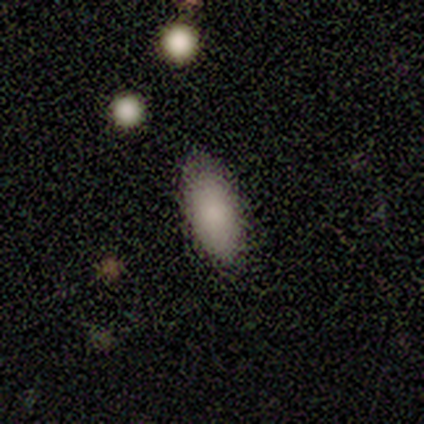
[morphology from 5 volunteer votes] Smooth or featured: smooth — 80% (featured or disk — 20%)
How rounded: in between — 100%
Merging: none — 80% (minor disturbance — 20%)